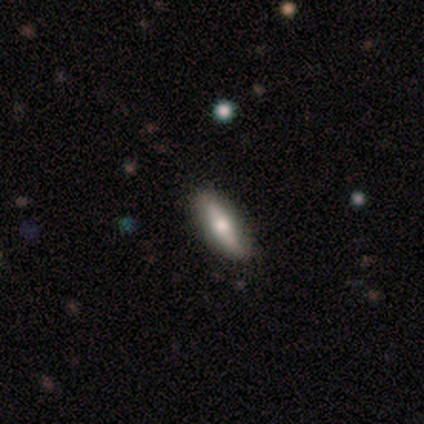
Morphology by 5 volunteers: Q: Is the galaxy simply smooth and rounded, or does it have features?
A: smooth — 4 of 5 (80%).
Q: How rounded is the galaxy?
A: cigar-shaped — 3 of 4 (75%).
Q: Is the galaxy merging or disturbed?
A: none — 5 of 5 (100%).